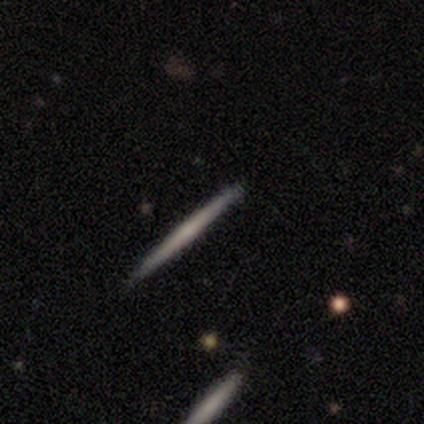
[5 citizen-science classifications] Smooth or featured?
  - smooth: 60% *
  - featured or disk: 20%
  - star or artifact: 20%
How rounded?
  - cigar-shaped: 100% *
  - round: 0%
  - in between: 0%
Merging?
  - none: 75% *
  - major disturbance: 25%
  - minor disturbance: 0%
  - merger: 0%